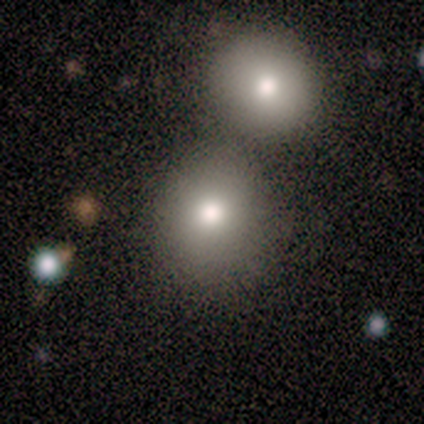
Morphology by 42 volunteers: type=smooth (83%); roundness=round (86%); merging=none (71%).